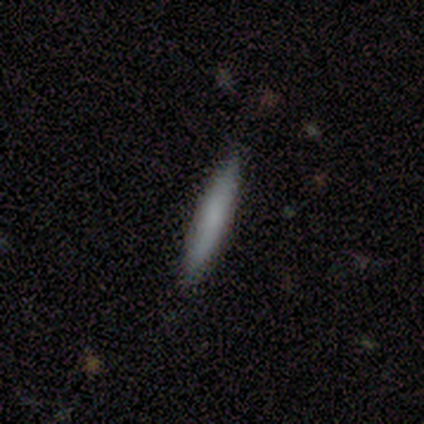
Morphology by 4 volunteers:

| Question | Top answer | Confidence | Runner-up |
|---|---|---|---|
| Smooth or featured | smooth | 75% | star or artifact (25%) |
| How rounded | cigar-shaped | 100% | — |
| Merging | none | 100% | — |